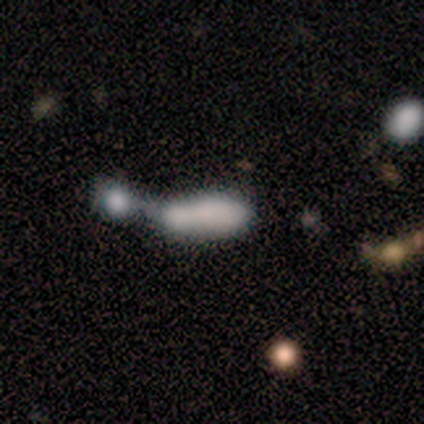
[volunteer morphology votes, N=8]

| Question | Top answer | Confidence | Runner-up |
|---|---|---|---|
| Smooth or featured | smooth | 75% | featured or disk (25%) |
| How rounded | in between | 50% | tied: cigar-shaped (50%) |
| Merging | merger | 75% | minor disturbance (25%) |